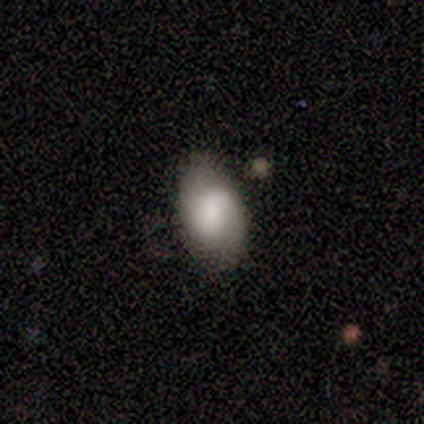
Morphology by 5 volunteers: A featured or disk galaxy (80%) with a strong bar (33%, tied with weak and no), 2 (100%) tight (100%) spiral arms (67%) and a large central bulge (33%, tied with small and none). Merging: none (60%).